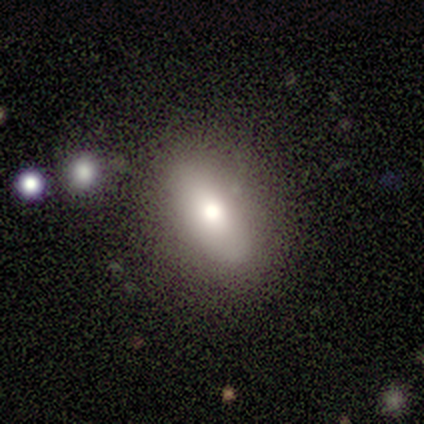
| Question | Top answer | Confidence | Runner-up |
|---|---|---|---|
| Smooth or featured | smooth | 100% | — |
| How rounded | in between | 100% | — |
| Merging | none | 75% | minor disturbance (25%) |